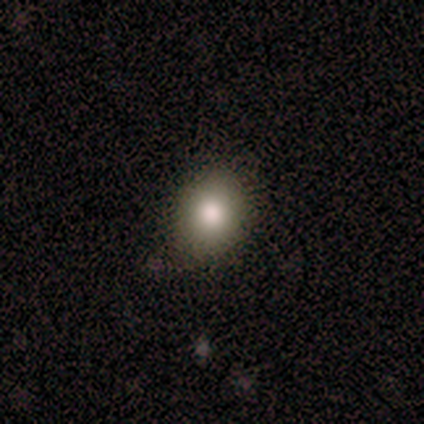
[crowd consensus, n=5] Overall: smooth (60%; star or artifact 40%). How rounded: in between (67%; round 33%). Merging: none (100%).